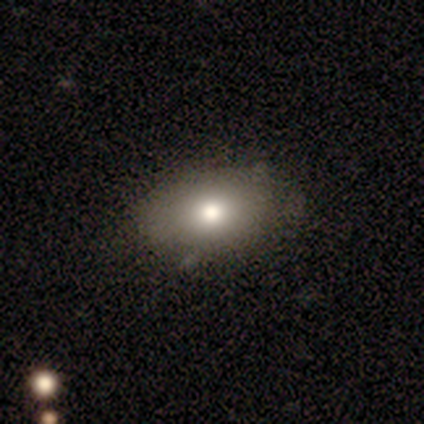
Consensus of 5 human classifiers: Overall: smooth (60%; featured or disk 40%). How rounded: round (67%; in between 33%). Merging: none (80%).